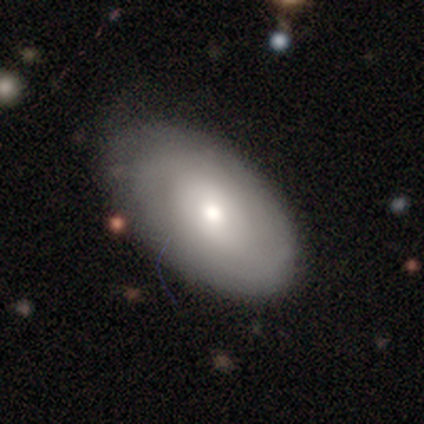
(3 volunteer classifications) A featured or disk galaxy (67%) with no bar (100%), tight (50%, tied with medium) spiral arms (100%) and a moderate central bulge (100%). Merging: none (100%).